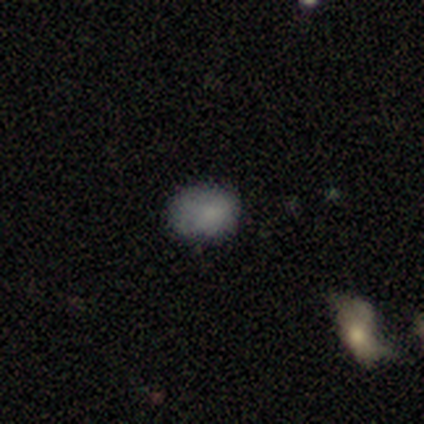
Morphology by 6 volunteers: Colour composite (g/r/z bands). It shows a smooth galaxy with no disk features (67%) that is in between round and cigar-shaped (100%). Merging: none (80%).